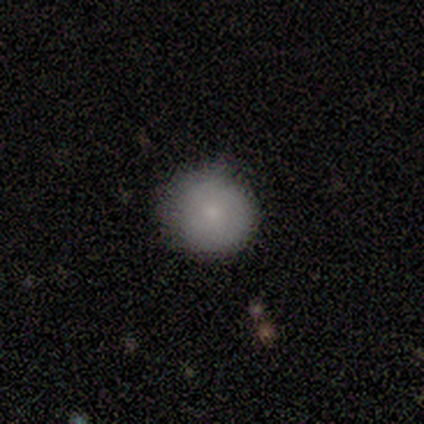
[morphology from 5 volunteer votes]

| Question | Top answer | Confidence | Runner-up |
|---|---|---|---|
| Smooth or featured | smooth | 100% | — |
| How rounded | round | 100% | — |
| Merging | none | 80% | minor disturbance (20%) |